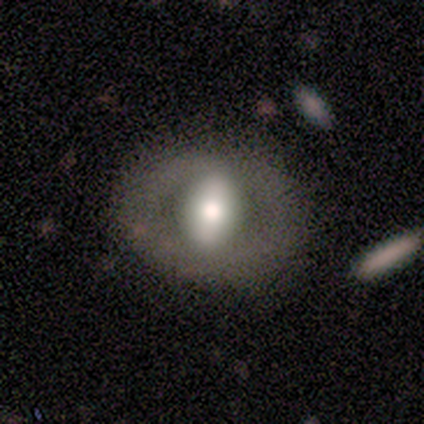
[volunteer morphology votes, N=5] Smooth or featured?
  - featured or disk: 60% *
  - star or artifact: 40%
  - smooth: 0%
Edge-on disk?
  - no: 67% *
  - yes: 33%
Bar?
  - weak: 50% * (tied)
  - no: 50% * (tied)
  - strong: 0%
Spiral arms?
  - no: 100% *
  - yes: 0%
Bulge size?
  - large: 100% *
  - dominant: 0%
  - moderate: 0%
  - small: 0%
  - none: 0%
Merging?
  - none: 67% *
  - major disturbance: 33%
  - minor disturbance: 0%
  - merger: 0%